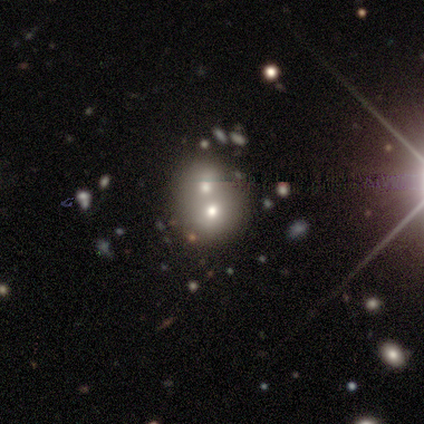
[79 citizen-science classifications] This appears to be a smooth galaxy with no disk features (65%) that is round (76%). Merging: merger (73%).